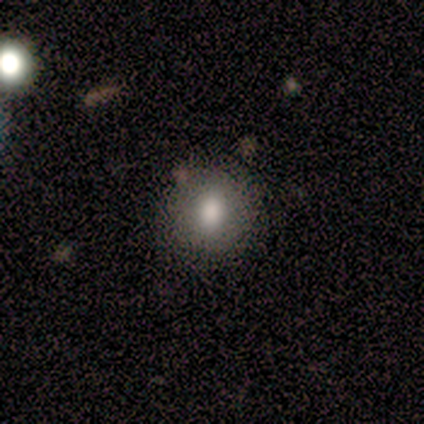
Volunteers were most divided on "merging": none: 75%, merger: 25%, minor disturbance: 0%, major disturbance: 0%. More confident: smooth or featured — smooth (100%); how rounded — round (100%).